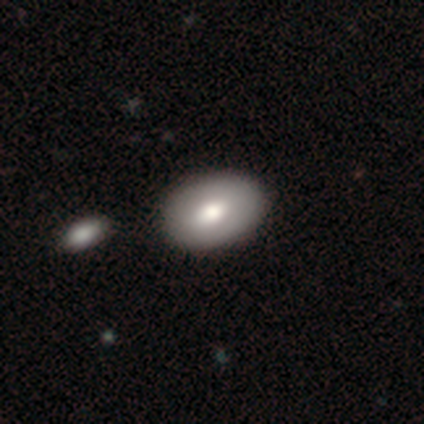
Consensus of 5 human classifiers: Morphology: type=smooth (60%); roundness=in between (100%); merging=none (100%).